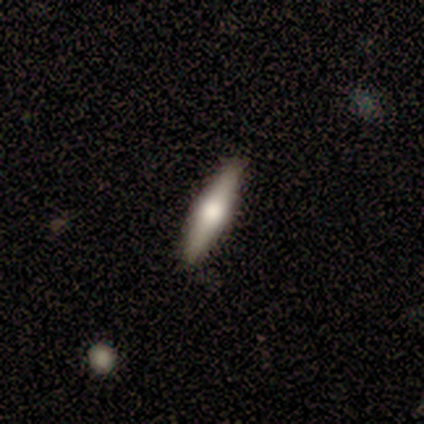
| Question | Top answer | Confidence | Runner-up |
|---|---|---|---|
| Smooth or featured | featured or disk | 67% | smooth (33%) |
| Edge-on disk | yes | 100% | — |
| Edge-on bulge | rounded | 100% | — |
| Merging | none | 100% | — |